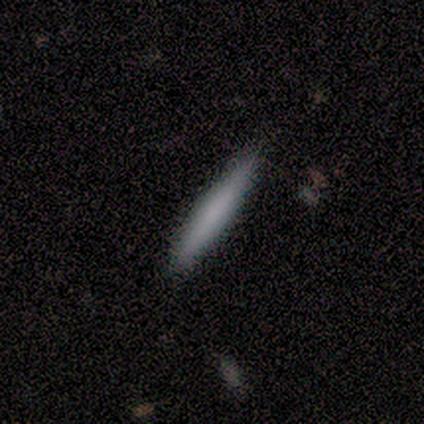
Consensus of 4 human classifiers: Overall: smooth (75%). How rounded: cigar-shaped (100%). Merging: none (100%).